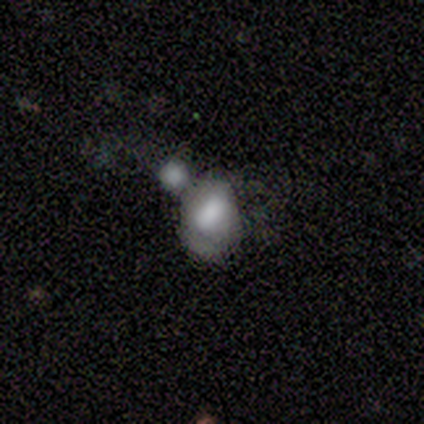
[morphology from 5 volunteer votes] smooth_or_featured: smooth (p=1.00)
how_rounded: round (p=0.60) [alt: in between p=0.40]
merging: merger (p=0.60) [alt: none p=0.20]